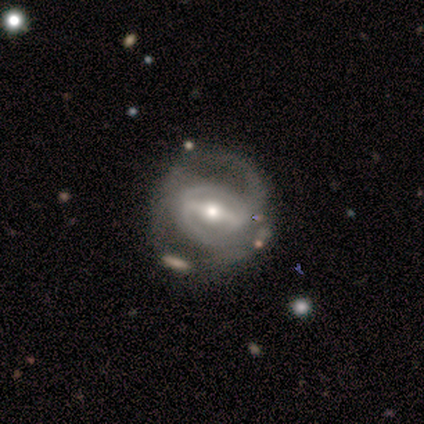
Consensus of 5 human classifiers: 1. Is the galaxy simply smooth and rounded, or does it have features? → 100% featured or disk, 0% smooth, 0% star or artifact.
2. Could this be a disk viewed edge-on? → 100% no, 0% yes.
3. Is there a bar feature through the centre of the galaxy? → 80% strong, 20% no, 0% weak.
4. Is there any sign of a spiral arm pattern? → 80% yes, 20% no.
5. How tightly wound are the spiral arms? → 75% medium, 25% tight, 0% loose.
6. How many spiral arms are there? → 75% 2, 25% can't tell, 0% 1, 0% 3, 0% 4, 0% more than 4.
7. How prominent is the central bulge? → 60% small, 40% moderate, 0% dominant, 0% large, 0% none.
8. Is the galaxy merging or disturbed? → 60% none, 20% major disturbance, 20% merger, 0% minor disturbance.